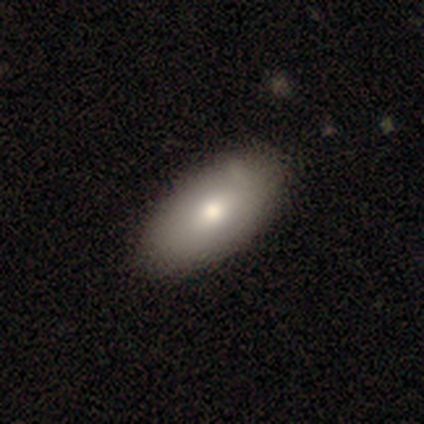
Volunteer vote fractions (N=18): Smooth or featured?
  - smooth: 72% *
  - featured or disk: 28%
  - star or artifact: 0%
How rounded?
  - in between: 92% *
  - round: 8%
  - cigar-shaped: 0%
Merging?
  - none: 72% *
  - minor disturbance: 22%
  - major disturbance: 6%
  - merger: 0%